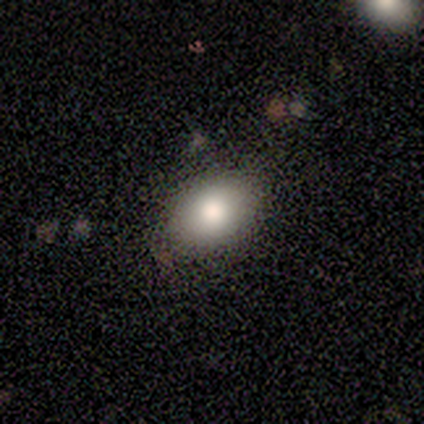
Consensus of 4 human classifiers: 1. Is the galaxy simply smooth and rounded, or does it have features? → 100% smooth, 0% featured or disk, 0% star or artifact.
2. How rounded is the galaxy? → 75% in between, 25% round, 0% cigar-shaped.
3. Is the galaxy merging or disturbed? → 75% none, 25% minor disturbance, 0% major disturbance, 0% merger.